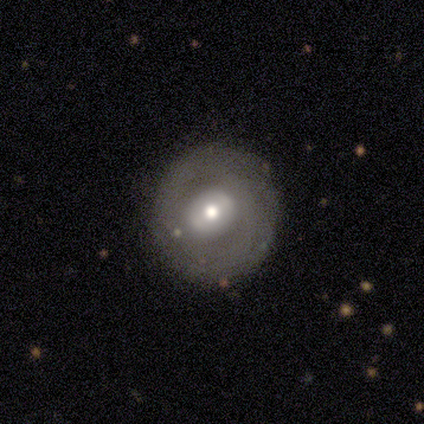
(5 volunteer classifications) Q: Smooth or featured?
A: featured or disk (60%); runner-up: smooth (40%)
Q: Edge-on disk?
A: no (100%)
Q: Bar?
A: no (67%); runner-up: weak (33%)
Q: Spiral arms?
A: no (67%); runner-up: yes (33%)
Q: Bulge size?
A: moderate (100%)
Q: Merging?
A: none (100%)